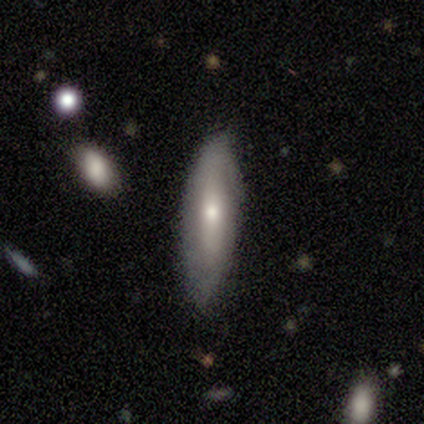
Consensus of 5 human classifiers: smooth-or-featured: featured or disk: 60% | smooth: 40% | star or artifact: 0%
  disk-edge-on: no: 100% | yes: 0%
    bar: no: 67% | weak: 33% | strong: 0%
    has-spiral-arms: no: 100% | yes: 0%
    bulge-size: moderate: 67% | small: 33% | dominant: 0% | large: 0% | none: 0%
  merging: none: 60% | major disturbance: 40% | minor disturbance: 0% | merger: 0%